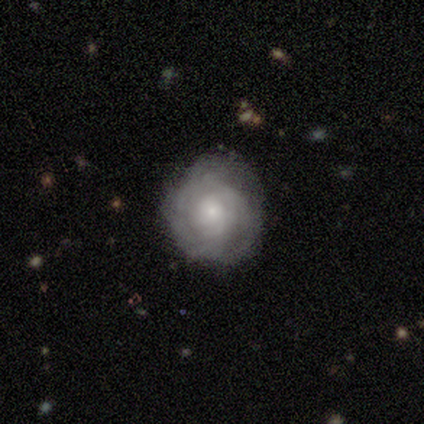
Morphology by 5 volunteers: Smooth or featured?
  - featured or disk: 80% *
  - smooth: 20%
  - star or artifact: 0%
Edge-on disk?
  - no: 100% *
  - yes: 0%
Bar?
  - no: 100% *
  - strong: 0%
  - weak: 0%
Spiral arms?
  - yes: 100% *
  - no: 0%
Spiral winding?
  - tight: 100% *
  - medium: 0%
  - loose: 0%
Spiral arm count?
  - can't tell: 75% *
  - more than 4: 25%
  - 1: 0%
  - 2: 0%
  - 3: 0%
  - 4: 0%
Bulge size?
  - small: 75% *
  - moderate: 25%
  - dominant: 0%
  - large: 0%
  - none: 0%
Merging?
  - none: 80% *
  - minor disturbance: 20%
  - major disturbance: 0%
  - merger: 0%